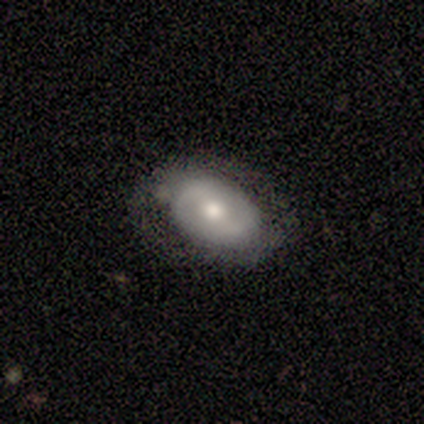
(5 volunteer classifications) A featured or disk galaxy (80%) with a weak bar (50%, tied with no), 2 (67%) loose (67%) spiral arms (75%) and a moderate central bulge (75%).

Vote fractions:
- Smooth or featured? featured or disk: 80% / star or artifact: 20% / smooth: 0%
- Edge-on disk? no: 100% / yes: 0%
- Bar? weak: 50% (tied) / no: 50% (tied) / strong: 0%
- Spiral arms? yes: 75% / no: 25%
- Spiral winding? loose: 67% / tight: 33% / medium: 0%
- Spiral arm count? 2: 67% / can't tell: 33% / 1: 0% / 3: 0% / 4: 0% / more than 4: 0%
- Bulge size? moderate: 75% / small: 25% / dominant: 0% / large: 0% / none: 0%
- Merging? none: 75% / major disturbance: 25% / minor disturbance: 0% / merger: 0%